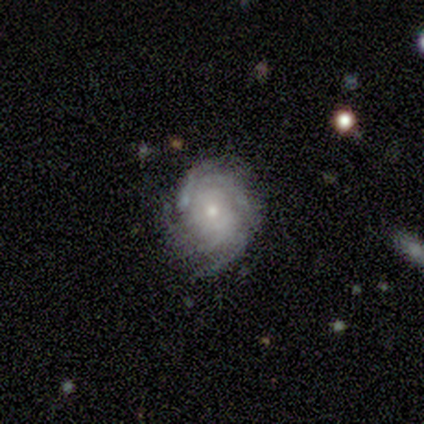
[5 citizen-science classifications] A featured or disk galaxy (80%) with no bar (100%), tight (50%, tied with medium) spiral arms (100%) and a moderate central bulge (50%, tied with small). Merging: none (80%).